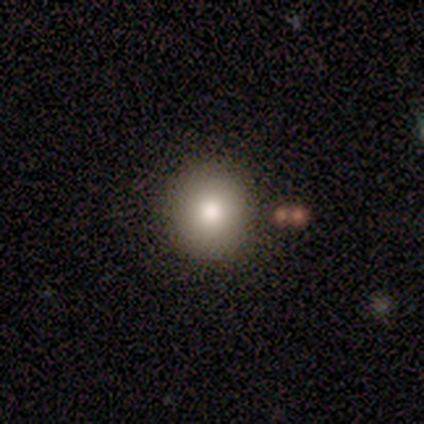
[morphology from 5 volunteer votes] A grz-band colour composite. It shows a smooth galaxy with no disk features (80%) that is round (75%). Merging: none (100%).